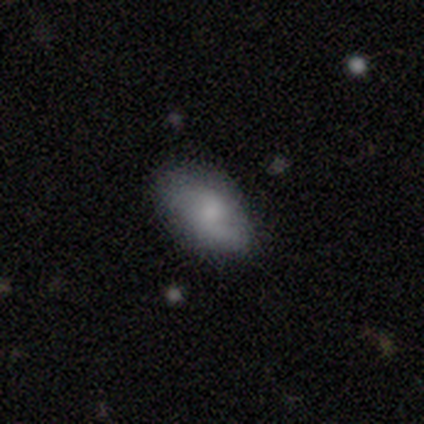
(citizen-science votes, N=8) This appears to be a smooth galaxy with no disk features (62%) that is in between round and cigar-shaped (100%). Merging: none (75%).